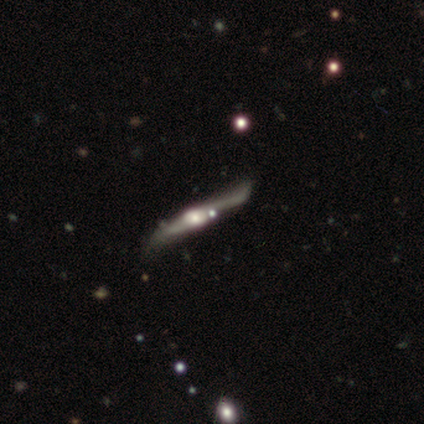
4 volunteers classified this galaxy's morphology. A smooth galaxy with no disk features (50%, tied with featured or disk) that is cigar-shaped (100%).

Vote fractions:
- Smooth or featured? smooth: 50% (tied) / featured or disk: 50% (tied) / star or artifact: 0%
- How rounded? cigar-shaped: 100% / round: 0% / in between: 0%
- Merging? none: 100% / minor disturbance: 0% / major disturbance: 0% / merger: 0%